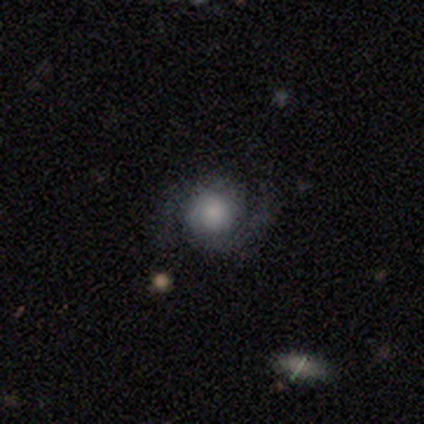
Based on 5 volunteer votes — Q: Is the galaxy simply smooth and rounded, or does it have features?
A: featured or disk — 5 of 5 (100%).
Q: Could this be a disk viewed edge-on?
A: no — 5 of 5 (100%).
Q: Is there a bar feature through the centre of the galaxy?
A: no — 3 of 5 (60%).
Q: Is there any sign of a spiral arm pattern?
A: yes — 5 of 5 (100%).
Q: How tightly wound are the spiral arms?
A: loose — 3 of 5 (60%).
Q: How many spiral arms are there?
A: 2 — 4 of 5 (80%).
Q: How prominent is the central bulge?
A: moderate — 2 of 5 (40%, tied with none).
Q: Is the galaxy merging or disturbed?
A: none — 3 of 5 (60%).